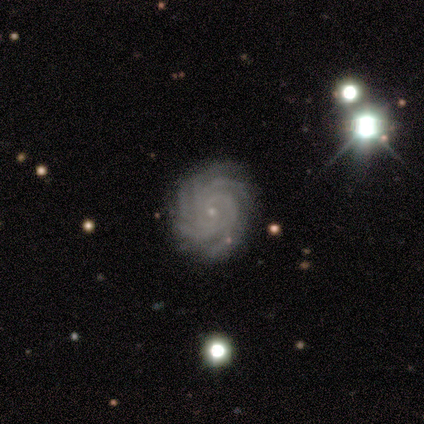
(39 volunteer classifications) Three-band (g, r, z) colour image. It shows a featured or disk galaxy (87%) with no bar (79%), 4 (38%, tied with more than 4) tight (88%) spiral arms (100%) and a small central bulge (94%). Merging: none (94%).